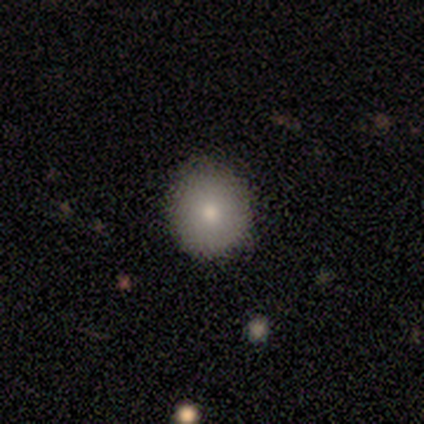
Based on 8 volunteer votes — smooth_or_featured: smooth (p=0.50) [alt: featured or disk p=0.38]
how_rounded: round (p=1.00)
merging: none (p=1.00)